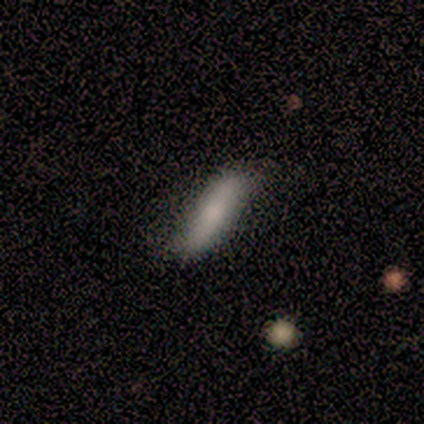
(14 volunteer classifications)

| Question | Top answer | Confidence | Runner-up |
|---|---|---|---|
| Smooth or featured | smooth | 50% | featured or disk (43%) |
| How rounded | cigar-shaped | 57% | in between (43%) |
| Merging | none | 54% | minor disturbance (31%) |